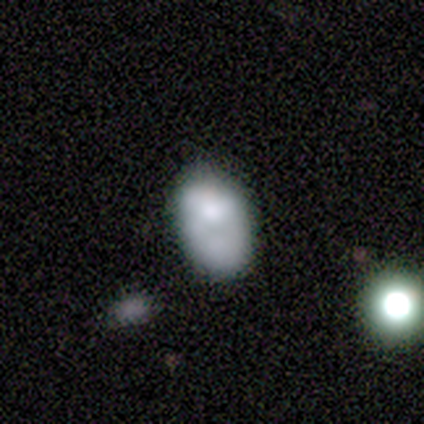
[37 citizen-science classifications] Volunteers were most divided on "merging": none: 34%, minor disturbance: 26%, major disturbance: 20%, merger: 20%. More confident: how rounded — in between (93%); smooth or featured — smooth (76%).